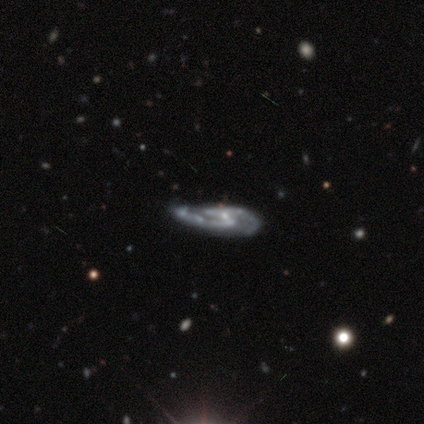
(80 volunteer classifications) A featured or disk galaxy (94%) with a weak bar (47%), 2 (80%) medium (55%) spiral arms (86%) and a small central bulge (76%). Merging: none (25%).